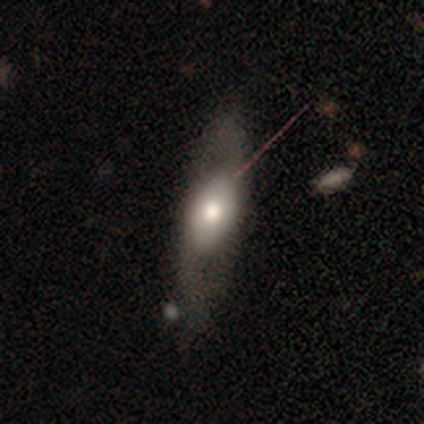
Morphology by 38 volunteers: Q: Smooth or featured?
A: featured or disk (58%); runner-up: smooth (42%)
Q: Edge-on disk?
A: no (55%); runner-up: yes (45%)
Q: Bar?
A: no (83%); runner-up: weak (17%)
Q: Spiral arms?
A: no (75%); runner-up: yes (25%)
Q: Bulge size?
A: moderate (75%); runner-up: large (25%)
Q: Merging?
A: none (53%); runner-up: minor disturbance (34%)